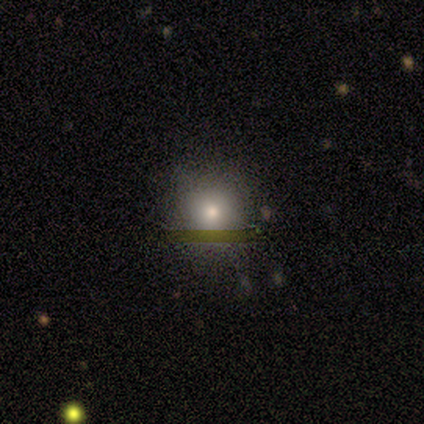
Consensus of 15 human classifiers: smooth_or_featured: smooth (p=0.60) [alt: featured or disk p=0.20]
how_rounded: round (p=1.00)
merging: none (p=0.67) [alt: minor disturbance p=0.33]